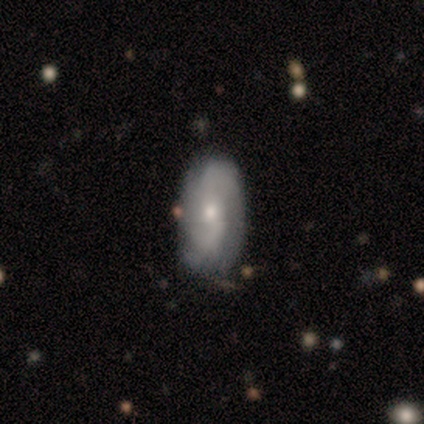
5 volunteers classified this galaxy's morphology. Smooth or featured? 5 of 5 (100%) said featured or disk. Edge-on disk? 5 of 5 (100%) said no. Bar? 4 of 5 (80%) said no. Spiral arms? 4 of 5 (80%) said yes. Spiral winding? 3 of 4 (75%) said loose. Spiral arm count? 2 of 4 (50%) said 2. Bulge size? 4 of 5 (80%) said moderate. Merging? 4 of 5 (80%) said none.